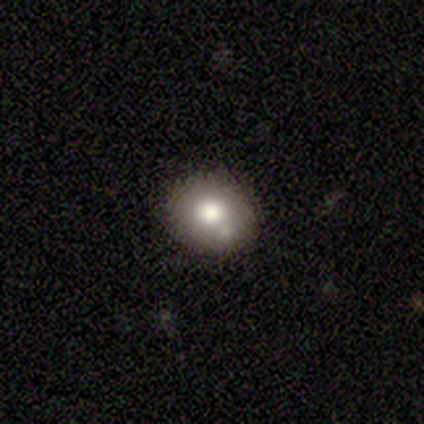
Overall: smooth (82%). How rounded: round (55%; in between 45%). Merging: none (74%).